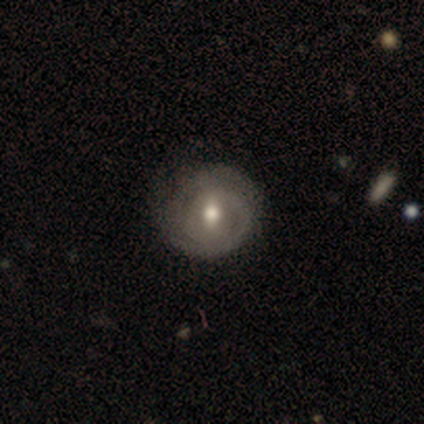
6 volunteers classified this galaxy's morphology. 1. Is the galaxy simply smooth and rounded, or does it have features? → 100% featured or disk, 0% smooth, 0% star or artifact.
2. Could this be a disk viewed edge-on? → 100% no, 0% yes.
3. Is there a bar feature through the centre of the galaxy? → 50% weak (tied), 50% no (tied), 0% strong.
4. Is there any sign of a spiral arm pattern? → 67% yes, 33% no.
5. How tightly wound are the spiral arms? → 50% medium, 25% tight, 25% loose.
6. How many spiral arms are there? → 75% 1, 25% can't tell, 0% 2, 0% 3, 0% 4, 0% more than 4.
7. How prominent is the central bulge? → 83% moderate, 17% small, 0% dominant, 0% large, 0% none.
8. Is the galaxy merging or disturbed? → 67% none, 33% minor disturbance, 0% major disturbance, 0% merger.